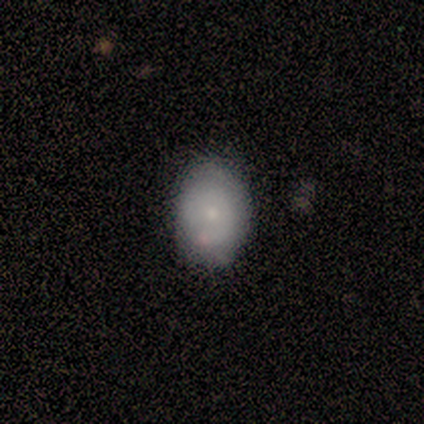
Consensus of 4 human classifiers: This is possibly a smooth galaxy (50%). How rounded: clearly in between (100%). Merging: clearly none (100%).